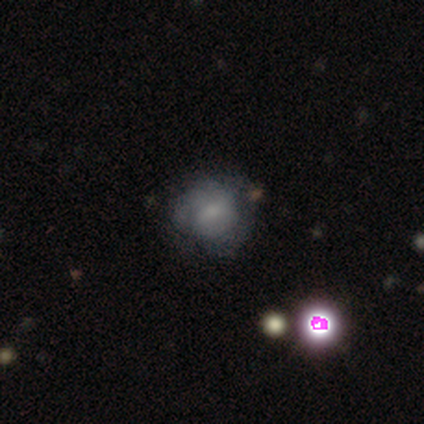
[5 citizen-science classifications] This appears to be a featured or disk galaxy (60%) with no bar (100%), no spiral arms (67%) and a small central bulge (67%). Merging: none (60%).